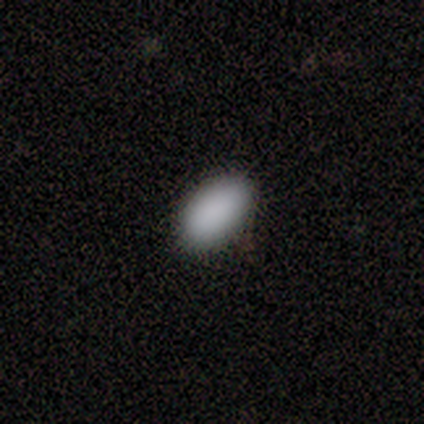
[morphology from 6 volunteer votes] smooth 100%, featured or disk 0%, star or artifact 0%. Down the decision tree: how rounded — in between (100%); merging — none (83%).